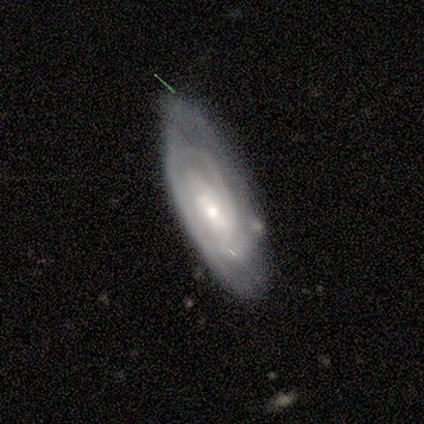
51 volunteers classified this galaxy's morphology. Volunteers were most divided on "bar": weak: 53%, no: 36%, strong: 11%. Remaining: edge-on disk — no (95%); spiral arms — yes (86%); smooth or featured — featured or disk (75%); spiral winding — tight (71%); bulge size — small (58%); merging — none (53%); spiral arm count — can't tell (48%).